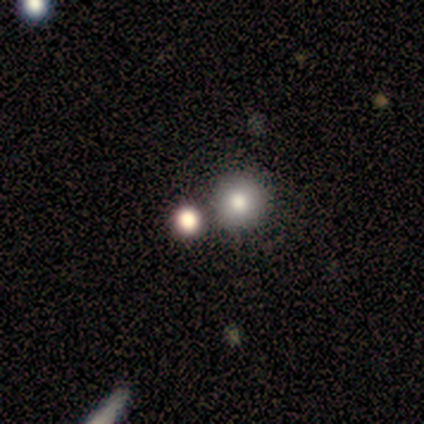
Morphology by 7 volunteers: Smooth or featured? 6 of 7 (86%) said smooth. How rounded? 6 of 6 (100%) said round. Merging? 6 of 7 (86%) said none.